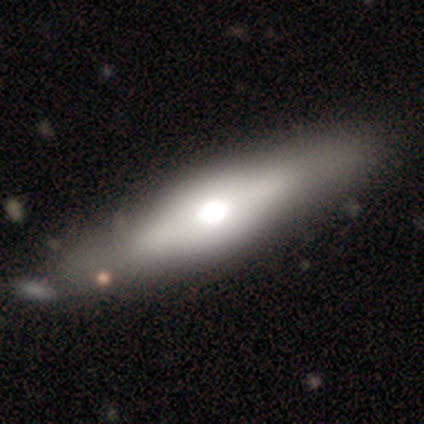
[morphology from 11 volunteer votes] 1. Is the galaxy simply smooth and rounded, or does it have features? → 55% smooth, 45% featured or disk, 0% star or artifact.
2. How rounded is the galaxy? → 67% cigar-shaped, 33% in between, 0% round.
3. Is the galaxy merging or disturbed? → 82% none, 9% minor disturbance, 9% merger, 0% major disturbance.